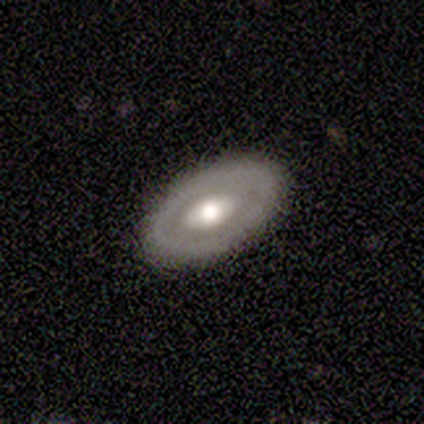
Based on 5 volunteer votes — featured or disk 60%, smooth 40%, star or artifact 0%. Down the decision tree: edge-on disk — no (100%); bar — no (100%); spiral arms — no (100%); bulge size — moderate (100%); merging — none (100%).